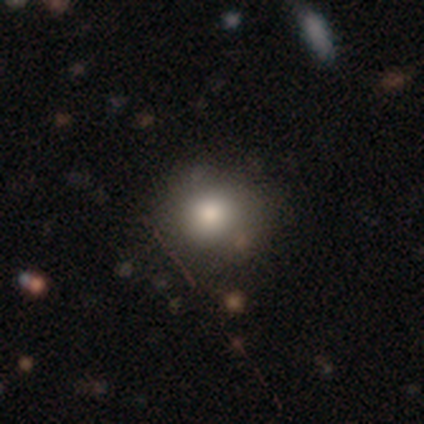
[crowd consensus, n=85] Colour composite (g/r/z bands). It shows a smooth galaxy with no disk features (81%) that is round (83%). Merging: none (79%).